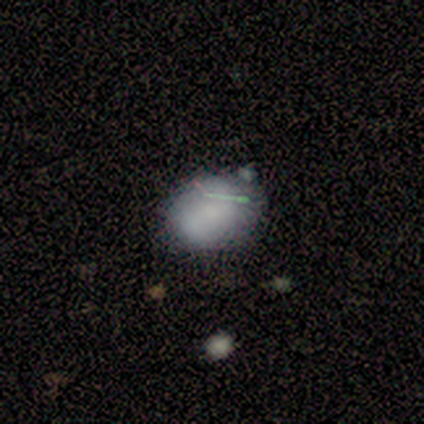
Smooth or featured? smooth (60%)
How rounded? round (67%)
Merging? none (50%)